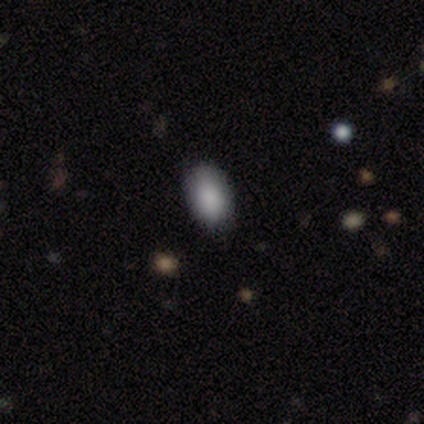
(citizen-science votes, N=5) Overall: smooth (100%). How rounded: in between (100%). Merging: none (100%).